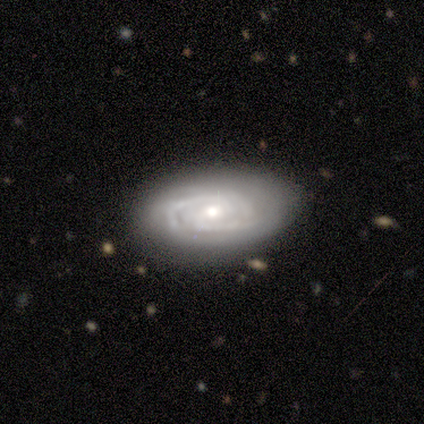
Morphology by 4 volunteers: Smooth or featured? 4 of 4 (100%) said featured or disk. Edge-on disk? 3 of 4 (75%) said no. Bar? 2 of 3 (67%) said no. Spiral arms? 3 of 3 (100%) said yes. Spiral winding? 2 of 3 (67%) said tight. Spiral arm count? 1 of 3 (33%, tied with 3 and can't tell) said 2. Bulge size? 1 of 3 (33%, tied with small and none) said moderate. Merging? 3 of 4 (75%) said none.